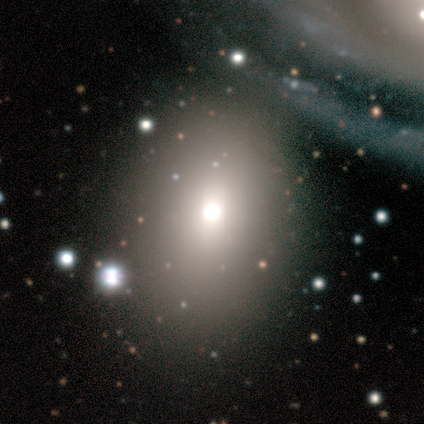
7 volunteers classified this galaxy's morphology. smooth_or_featured: star or artifact (p=0.57) [alt: smooth p=0.43]